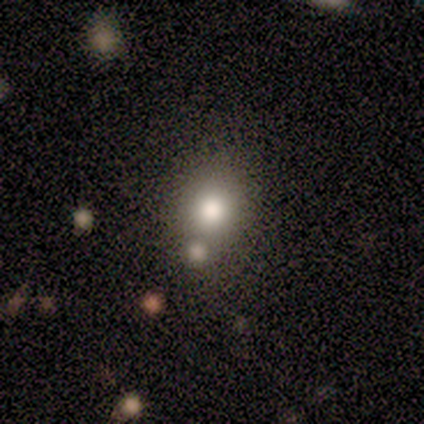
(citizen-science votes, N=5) Smooth or featured: smooth — 80% (featured or disk — 20%)
How rounded: round — 75% (in between — 25%)
Merging: none — 60% (minor disturbance — 20%)